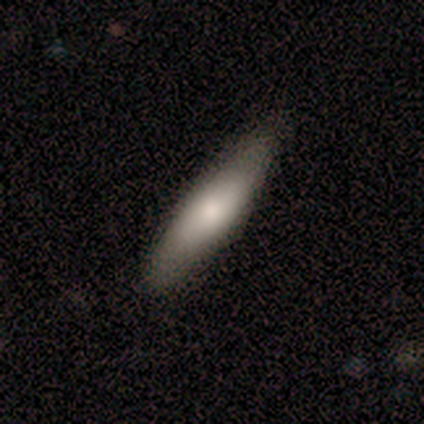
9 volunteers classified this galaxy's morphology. smooth_or_featured: smooth (p=0.44) [alt: featured or disk p=0.33]
how_rounded: in between (p=0.50) [tied with: cigar-shaped p=0.50]
merging: none (p=0.86) [alt: minor disturbance p=0.14]